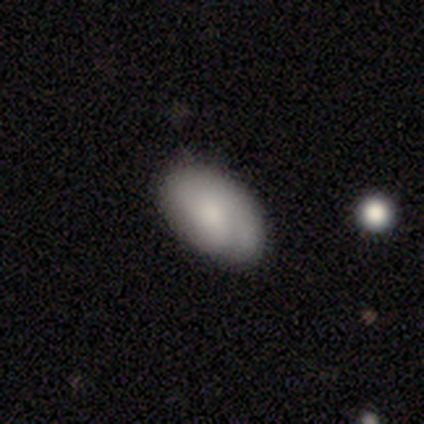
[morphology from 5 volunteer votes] This appears to be a featured or disk galaxy (60%) with no bar (67%), 1 (67%) tight (67%) spiral arms (100%) and a small central bulge (67%). Merging: none (60%).